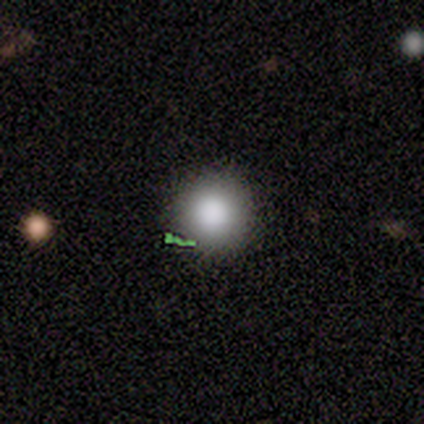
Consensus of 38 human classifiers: This appears to be a smooth galaxy with no disk features (68%) that is round (92%). Merging: none (90%).